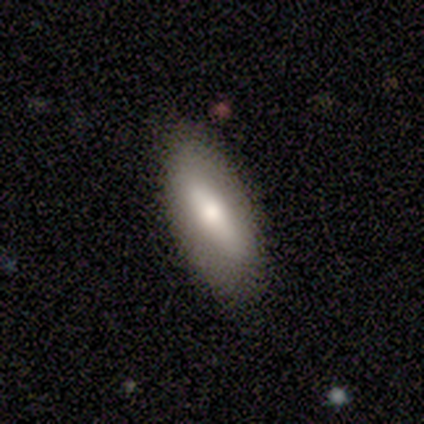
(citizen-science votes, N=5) A smooth galaxy with no disk features (60%) that is in between round and cigar-shaped (100%). Merging: none (100%).